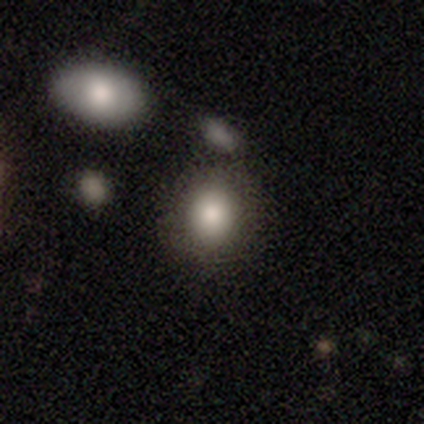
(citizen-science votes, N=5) Q: Smooth or featured?
A: smooth (100%)
Q: How rounded?
A: in between (60%); runner-up: round (40%)
Q: Merging?
A: none (80%); runner-up: minor disturbance (20%)